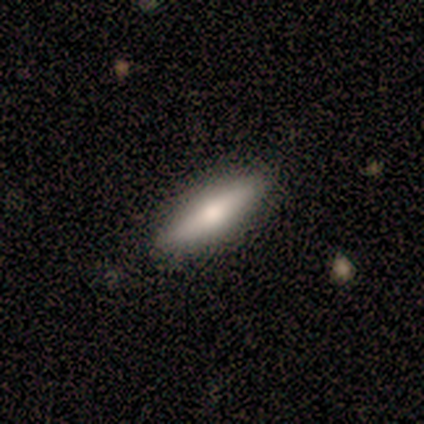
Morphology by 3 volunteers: type=smooth (67%); roundness=cigar-shaped (100%); merging=none (100%).